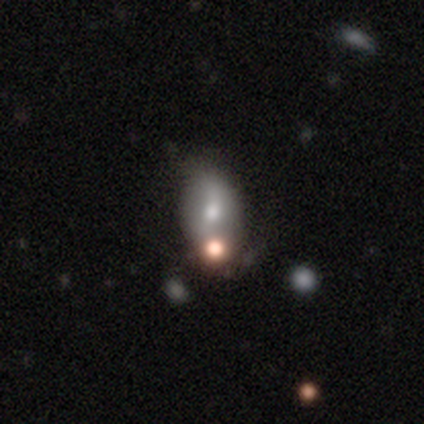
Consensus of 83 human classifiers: Smooth or featured: smooth — 58% (featured or disk — 31%)
How rounded: in between — 90% (round — 6%)
Merging: none — 42% (minor disturbance — 26%)